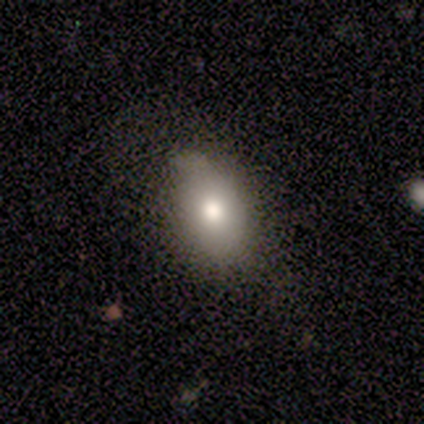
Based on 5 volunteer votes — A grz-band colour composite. It shows a smooth galaxy with no disk features (100%) that is in between round and cigar-shaped (80%). Merging: none (100%).